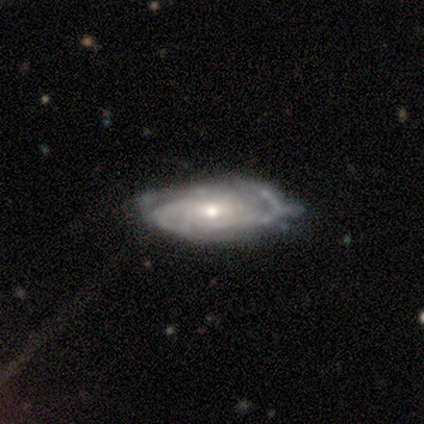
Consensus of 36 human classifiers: Q: Smooth or featured?
A: featured or disk (83%); runner-up: smooth (17%)
Q: Edge-on disk?
A: no (87%); runner-up: yes (13%)
Q: Bar?
A: no (62%); runner-up: weak (38%)
Q: Spiral arms?
A: yes (96%); runner-up: no (4%)
Q: Spiral winding?
A: tight (64%); runner-up: medium (32%)
Q: Spiral arm count?
A: 3 (32%); runner-up: can't tell (28%)
Q: Bulge size?
A: small (58%); runner-up: moderate (38%)
Q: Merging?
A: none (53%); runner-up: minor disturbance (33%)